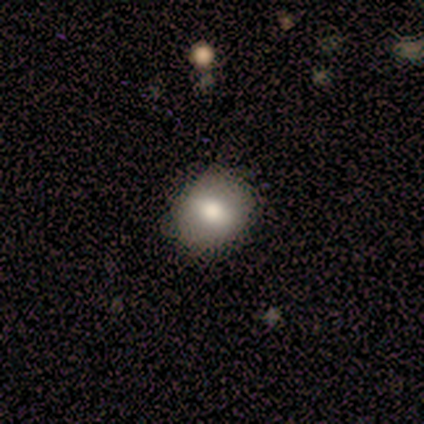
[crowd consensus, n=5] smooth_or_featured: smooth (p=0.80) [alt: featured or disk p=0.20]
how_rounded: round (p=0.75) [alt: in between p=0.25]
merging: none (p=0.80) [alt: minor disturbance p=0.20]